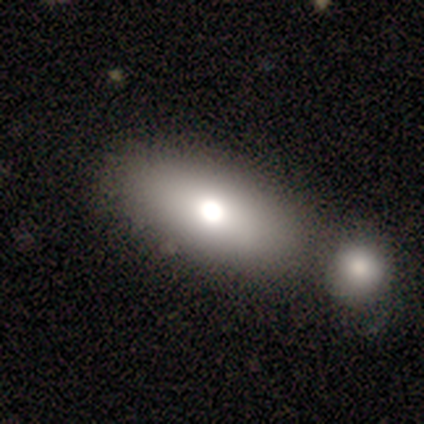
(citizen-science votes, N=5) smooth 60%, featured or disk 20%, star or artifact 20%. Down the decision tree: how rounded — in between (100%); merging — none (75%).